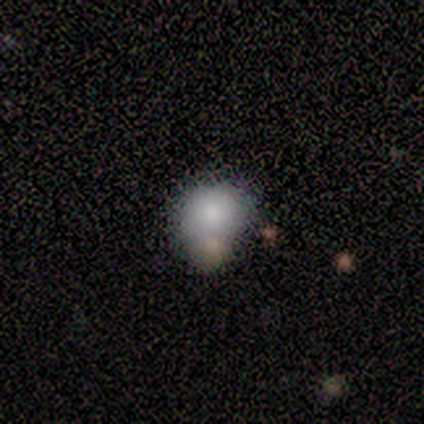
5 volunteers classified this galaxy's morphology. This is clearly a smooth galaxy (80%). How rounded: possibly round (50%, tied with in between). Merging: clearly none (100%).